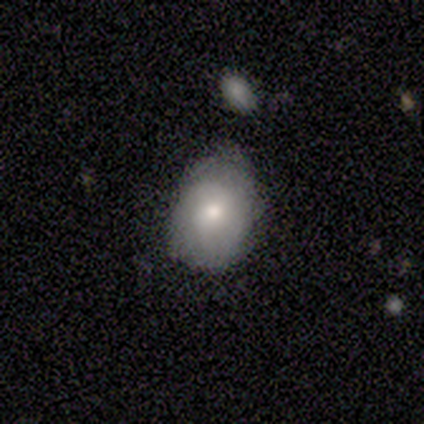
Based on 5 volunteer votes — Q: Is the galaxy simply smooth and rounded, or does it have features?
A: smooth — 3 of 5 (60%).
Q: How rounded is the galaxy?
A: in between — 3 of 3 (100%).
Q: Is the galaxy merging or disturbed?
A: none — 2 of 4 (50%, tied with minor disturbance).